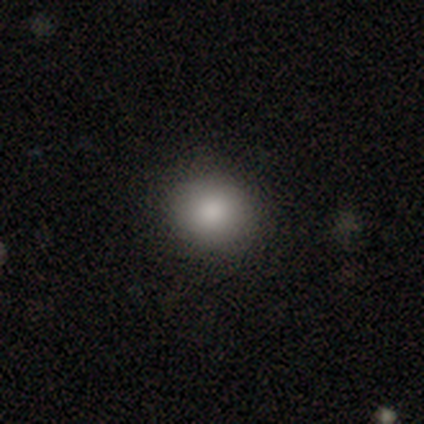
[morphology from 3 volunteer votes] Smooth or featured: smooth — 100%
How rounded: round — 67% (in between — 33%)
Merging: none — 100%